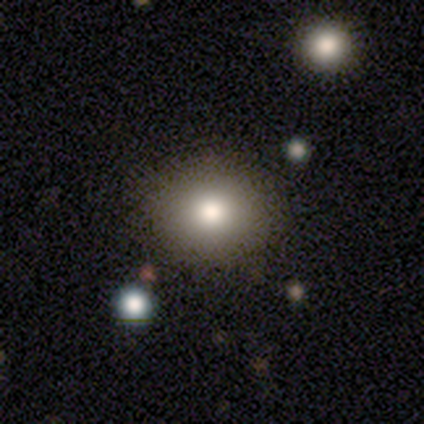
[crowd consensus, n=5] smooth 80%, featured or disk 20%, star or artifact 0%. Down the decision tree: how rounded — round (75%); merging — none (100%).